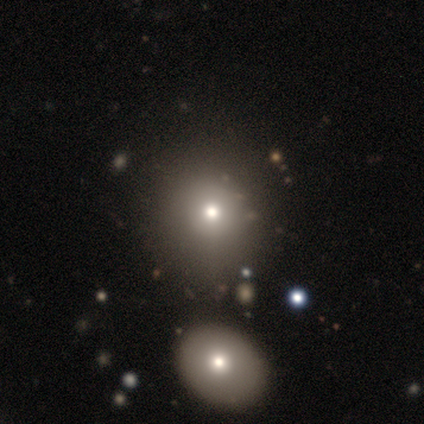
A featured or disk galaxy (80%) with no bar (100%), no spiral arms (100%) and a moderate central bulge (50%). Merging: none (75%).